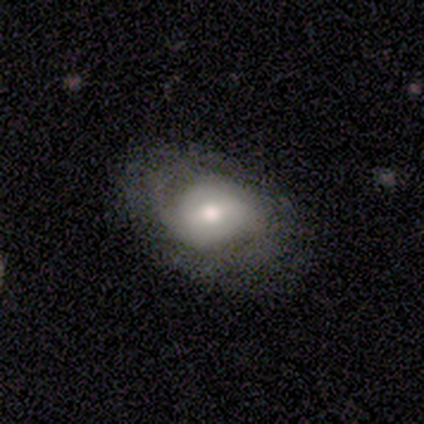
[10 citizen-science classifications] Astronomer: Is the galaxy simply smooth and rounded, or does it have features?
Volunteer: featured or disk — 60%.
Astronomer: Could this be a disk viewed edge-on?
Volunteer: no — 100%.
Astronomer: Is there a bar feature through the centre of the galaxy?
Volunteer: weak — 50%, tied with no at 50%.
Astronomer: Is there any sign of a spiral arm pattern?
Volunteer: yes — 83%.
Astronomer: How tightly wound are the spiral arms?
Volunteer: tight — 60%.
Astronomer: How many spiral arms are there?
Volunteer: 2 — 60%.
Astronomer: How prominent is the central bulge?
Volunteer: moderate — 67%.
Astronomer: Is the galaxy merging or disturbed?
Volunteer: none — 44%, tied with minor disturbance at 44%.